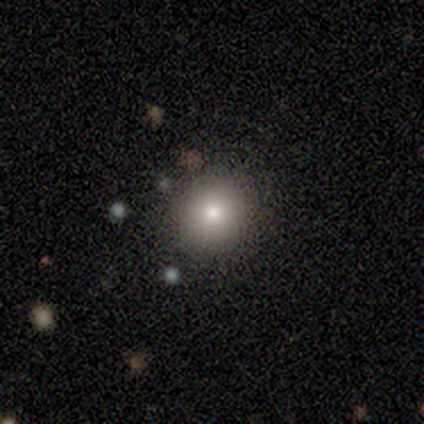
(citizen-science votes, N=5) Morphology: type=smooth (80%); roundness=round (100%); merging=none (100%).